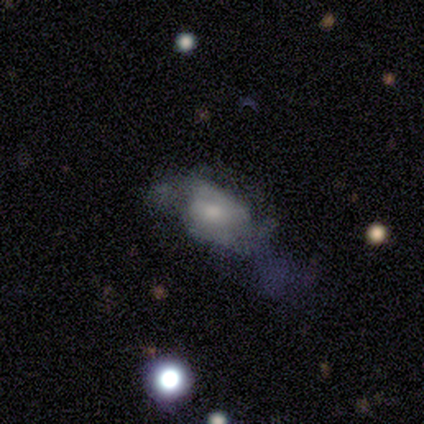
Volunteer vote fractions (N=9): Overall: smooth (56%; featured or disk 44%). How rounded: in between (100%). Merging: none (33%, tied with major disturbance).